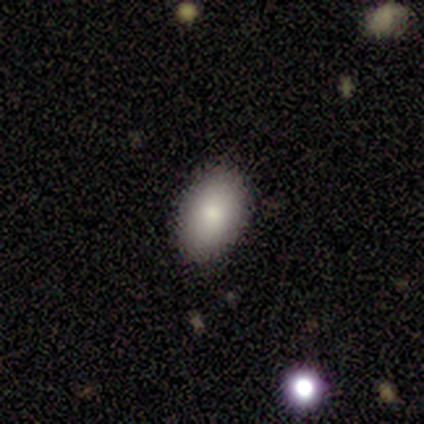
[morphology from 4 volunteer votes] A smooth galaxy with no disk features (100%) that is in between round and cigar-shaped (100%). Merging: none (100%).